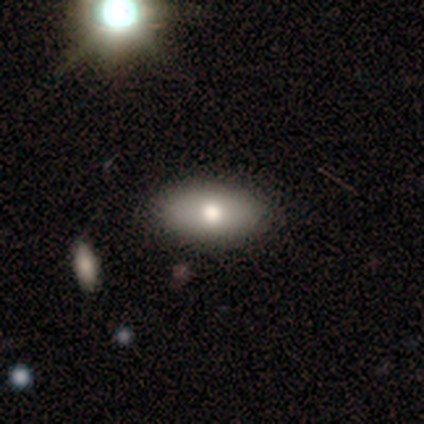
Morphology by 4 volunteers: Overall: smooth (100%). How rounded: in between (100%). Merging: none (75%).